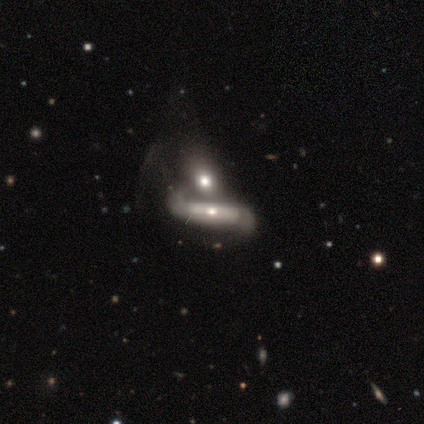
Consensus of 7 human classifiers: Overall: featured or disk (86%). Edge-on disk: no (83%). Bar: no (60%; weak 40%). Spiral arms: yes (60%; no 40%). Spiral arm count: 2 (100%). Spiral winding: loose (100%). Bulge size: small (60%; moderate 40%). Merging: merger (100%).